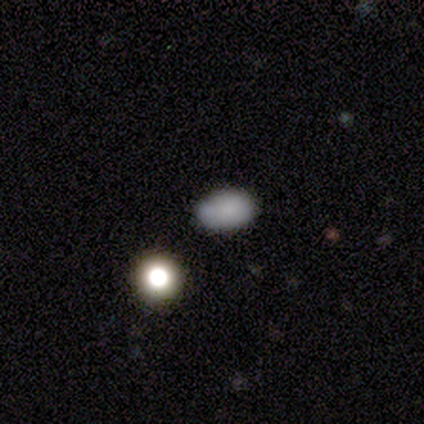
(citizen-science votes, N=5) Morphology: type=smooth (80%); roundness=in between (100%); merging=none (80%).